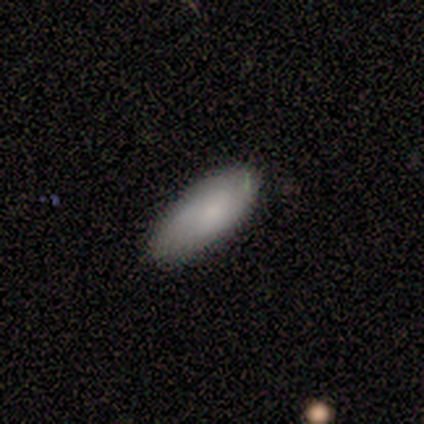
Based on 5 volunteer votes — Overall: smooth (100%). How rounded: in between (80%). Merging: none (100%).